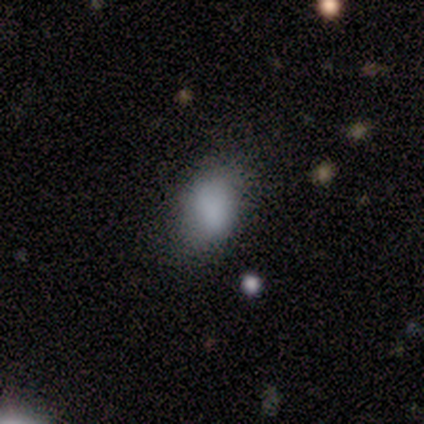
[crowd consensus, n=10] smooth_or_featured: smooth (p=0.90) [alt: star or artifact p=0.10]
how_rounded: in between (p=0.89) [alt: round p=0.11]
merging: none (p=0.44) [alt: minor disturbance p=0.33]